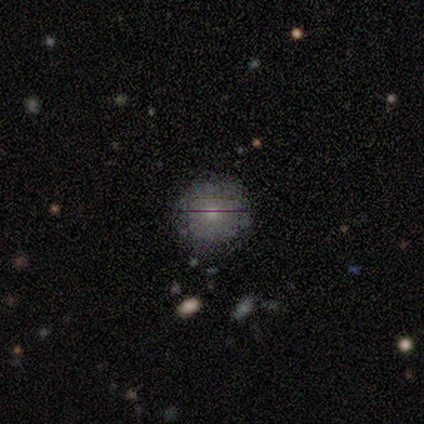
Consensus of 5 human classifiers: Smooth or featured?
  - smooth: 60% *
  - featured or disk: 20%
  - star or artifact: 20%
How rounded?
  - round: 100% *
  - in between: 0%
  - cigar-shaped: 0%
Merging?
  - none: 75% *
  - major disturbance: 25%
  - minor disturbance: 0%
  - merger: 0%